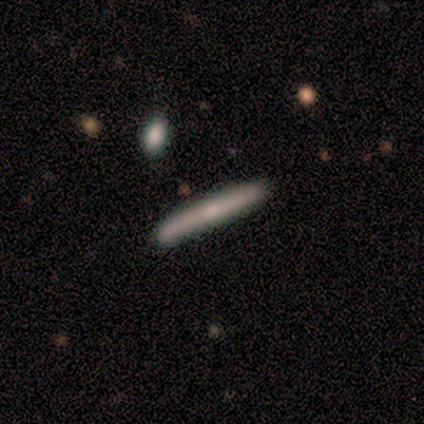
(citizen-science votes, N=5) Overall: smooth (60%; featured or disk 40%). How rounded: cigar-shaped (100%). Merging: none (80%).